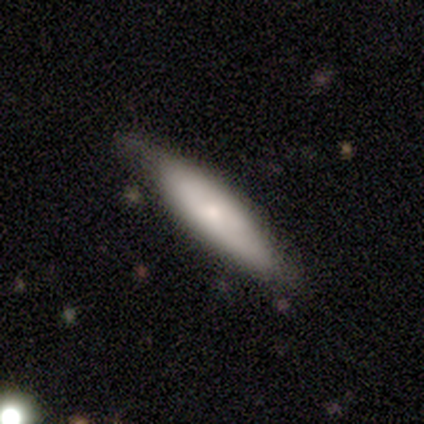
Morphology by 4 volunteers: Volunteers were most divided on "how rounded": cigar-shaped: 67%, in between: 33%, round: 0%. More confident: merging — none (100%); smooth or featured — smooth (75%).